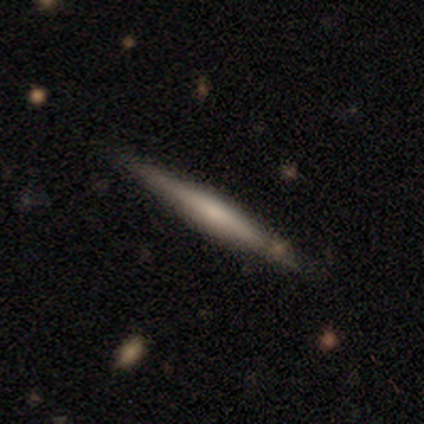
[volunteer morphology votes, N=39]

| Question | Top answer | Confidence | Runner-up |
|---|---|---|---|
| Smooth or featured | featured or disk | 69% | smooth (26%) |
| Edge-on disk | yes | 96% | no (4%) |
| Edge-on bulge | rounded | 58% | none (23%) |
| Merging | none | 81% | minor disturbance (14%) |